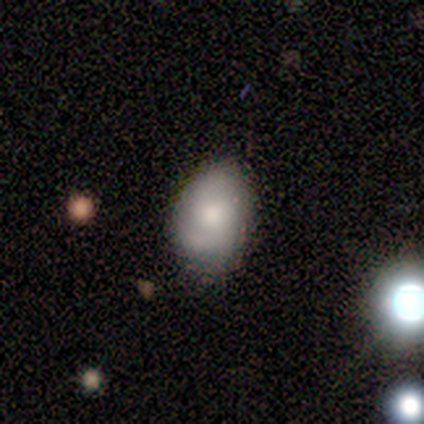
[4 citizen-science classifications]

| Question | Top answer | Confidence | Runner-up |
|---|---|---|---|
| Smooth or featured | smooth | 50% | tied: featured or disk (50%) |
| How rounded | in between | 100% | — |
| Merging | none | 50% | minor disturbance (25%) |